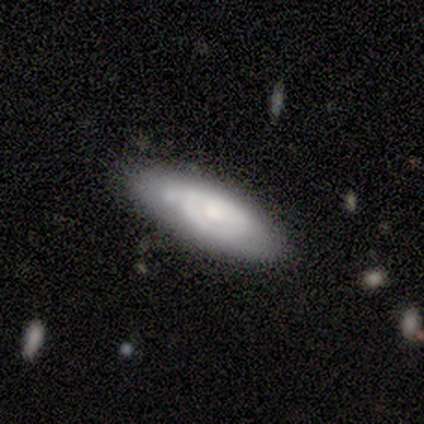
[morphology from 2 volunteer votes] smooth-or-featured: smooth: 50% (tied) | featured or disk: 50% (tied) | star or artifact: 0%
  how-rounded: in between: 100% | round: 0% | cigar-shaped: 0%
  merging: none: 50% (tied) | minor disturbance: 50% (tied) | major disturbance: 0% | merger: 0%